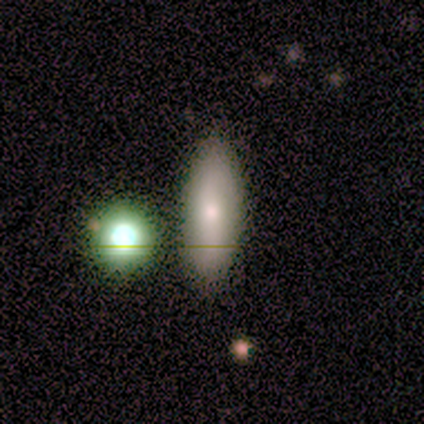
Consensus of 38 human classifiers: A smooth galaxy with no disk features (71%) that is in between round and cigar-shaped (56%).

Vote fractions:
- Smooth or featured? smooth: 71% / featured or disk: 18% / star or artifact: 11%
- How rounded? in between: 56% / cigar-shaped: 44% / round: 0%
- Merging? none: 79% / minor disturbance: 15% / merger: 6% / major disturbance: 0%